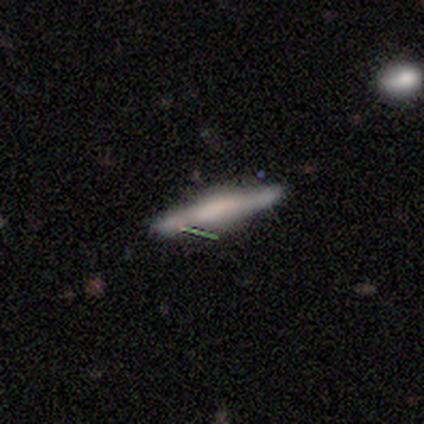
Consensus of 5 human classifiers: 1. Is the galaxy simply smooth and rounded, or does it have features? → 40% smooth (tied), 40% star or artifact (tied), 20% featured or disk.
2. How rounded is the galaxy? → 100% cigar-shaped, 0% round, 0% in between.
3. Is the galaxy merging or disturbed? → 100% none, 0% minor disturbance, 0% major disturbance, 0% merger.